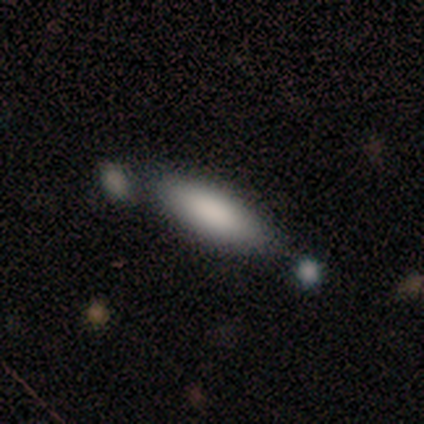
Smooth or featured?
  - smooth: 100% *
  - featured or disk: 0%
  - star or artifact: 0%
How rounded?
  - in between: 60% *
  - cigar-shaped: 40%
  - round: 0%
Merging?
  - none: 60% *
  - minor disturbance: 20%
  - major disturbance: 20%
  - merger: 0%